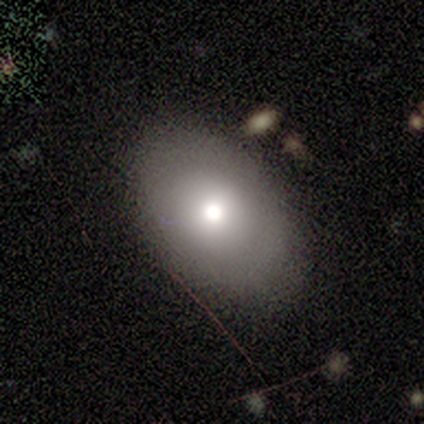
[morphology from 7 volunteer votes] This appears to be a smooth galaxy with no disk features (86%) that is in between round and cigar-shaped (100%). Merging: none (86%).